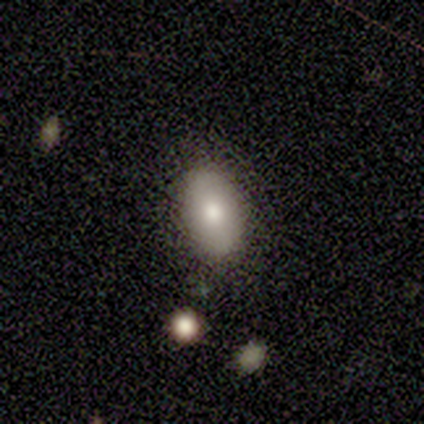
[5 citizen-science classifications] smooth-or-featured: smooth: 80% | featured or disk: 20% | star or artifact: 0%
  how-rounded: in between: 100% | round: 0% | cigar-shaped: 0%
  merging: none: 100% | minor disturbance: 0% | major disturbance: 0% | merger: 0%